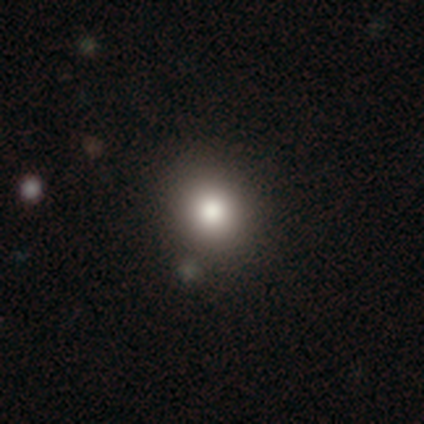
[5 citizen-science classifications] A smooth galaxy with no disk features (80%) that is round (100%). Merging: none (50%).